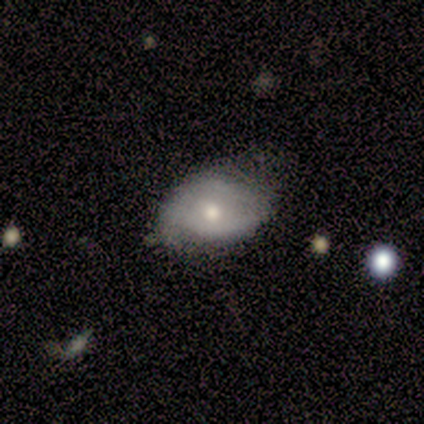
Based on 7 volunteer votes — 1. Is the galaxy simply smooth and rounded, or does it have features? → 43% smooth (tied), 43% featured or disk (tied), 14% star or artifact.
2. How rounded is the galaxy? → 67% in between, 33% round, 0% cigar-shaped.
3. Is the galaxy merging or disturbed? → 67% none, 33% minor disturbance, 0% major disturbance, 0% merger.